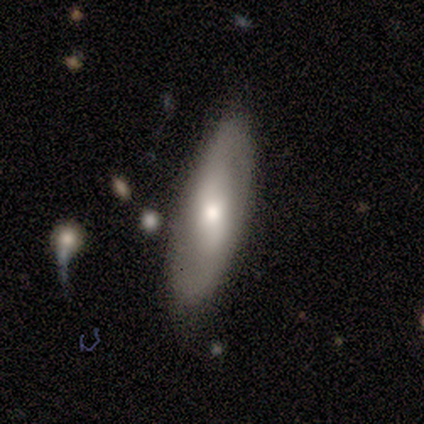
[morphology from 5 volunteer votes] Q: Smooth or featured?
A: featured or disk (60%); runner-up: smooth (40%)
Q: Edge-on disk?
A: no (100%)
Q: Bar?
A: no (67%); runner-up: strong (33%)
Q: Spiral arms?
A: yes (100%)
Q: Spiral winding?
A: loose (67%); runner-up: medium (33%)
Q: Spiral arm count?
A: 2 (100%)
Q: Bulge size?
A: moderate (67%); runner-up: large (33%)
Q: Merging?
A: none (80%); runner-up: minor disturbance (20%)